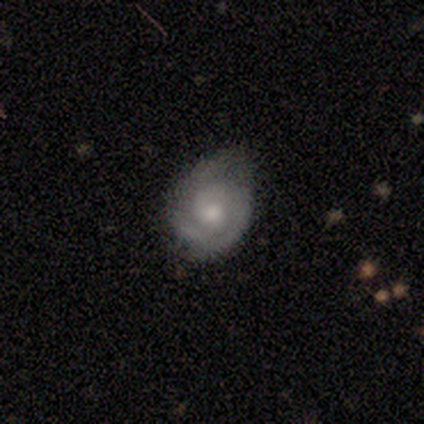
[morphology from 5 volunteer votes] Smooth or featured: featured or disk — 100%
Edge-on disk: no — 100%
Bar: no — 100%
Spiral arms: yes — 80% (no — 20%)
Spiral winding: tight — 75% (medium — 25%)
Spiral arm count: can't tell — 50% (1 — 25%)
Bulge size: moderate — 60% (small — 40%)
Merging: none — 60% (minor disturbance — 40%)